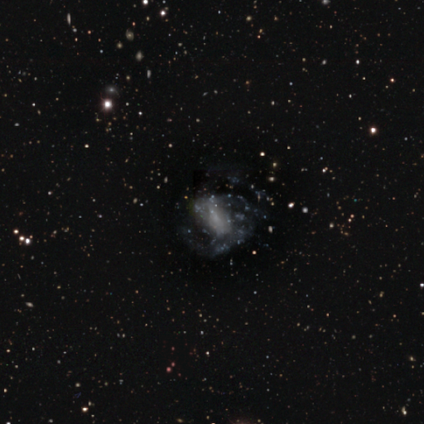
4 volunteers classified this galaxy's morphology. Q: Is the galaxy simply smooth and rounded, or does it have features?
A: featured or disk — 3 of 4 (75%).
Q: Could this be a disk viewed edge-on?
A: no — 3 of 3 (100%).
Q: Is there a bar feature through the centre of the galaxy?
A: no — 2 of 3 (67%).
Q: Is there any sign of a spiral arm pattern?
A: yes — 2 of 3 (67%).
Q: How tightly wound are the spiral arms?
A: tight — 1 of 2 (50%, tied with medium).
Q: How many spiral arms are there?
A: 2 — 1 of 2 (50%, tied with can't tell).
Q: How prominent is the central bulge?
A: small — 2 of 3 (67%).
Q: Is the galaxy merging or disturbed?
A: none — 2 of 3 (67%).